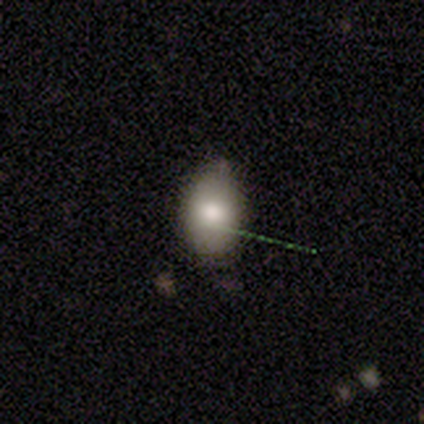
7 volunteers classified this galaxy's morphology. smooth_or_featured: featured or disk (p=0.57) [alt: smooth p=0.43]
disk_edge_on: yes (p=0.50) [tied with: no p=0.50]
edge_on_bulge: rounded (p=1.00)
merging: minor disturbance (p=0.57) [alt: none p=0.43]